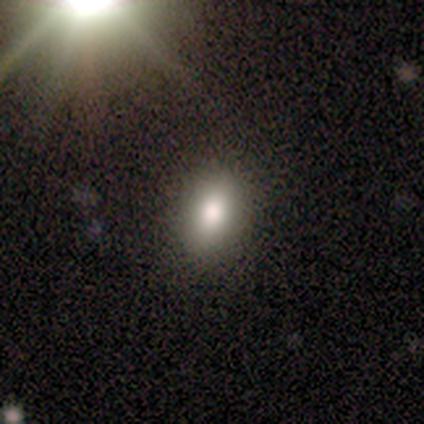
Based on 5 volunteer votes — Overall: smooth (100%). How rounded: in between (80%). Merging: none (100%).